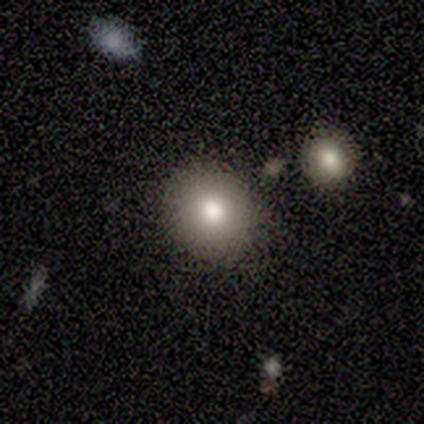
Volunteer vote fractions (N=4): A smooth galaxy with no disk features (75%) that is round (100%). Merging: none (100%).